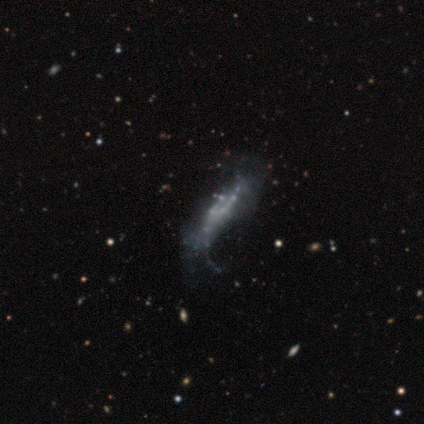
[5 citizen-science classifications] A featured or disk galaxy (60%) with no bar (100%), 4 (50%, tied with can't tell) loose (100%) spiral arms (100%) and no central bulge (100%).

Vote fractions:
- Smooth or featured? featured or disk: 60% / smooth: 20% / star or artifact: 20%
- Edge-on disk? no: 67% / yes: 33%
- Bar? no: 100% / strong: 0% / weak: 0%
- Spiral arms? yes: 100% / no: 0%
- Spiral winding? loose: 100% / tight: 0% / medium: 0%
- Spiral arm count? 4: 50% (tied) / can't tell: 50% (tied) / 1: 0% / 2: 0% / 3: 0% / more than 4: 0%
- Bulge size? none: 100% / dominant: 0% / large: 0% / moderate: 0% / small: 0%
- Merging? none: 50% (tied) / major disturbance: 50% (tied) / minor disturbance: 0% / merger: 0%